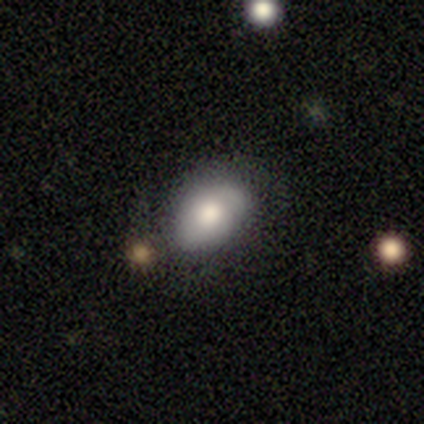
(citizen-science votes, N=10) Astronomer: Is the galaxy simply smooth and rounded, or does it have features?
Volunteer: smooth — 80%.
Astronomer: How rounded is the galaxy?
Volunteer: in between — 62%.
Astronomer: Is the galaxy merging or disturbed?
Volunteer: none — 60%.